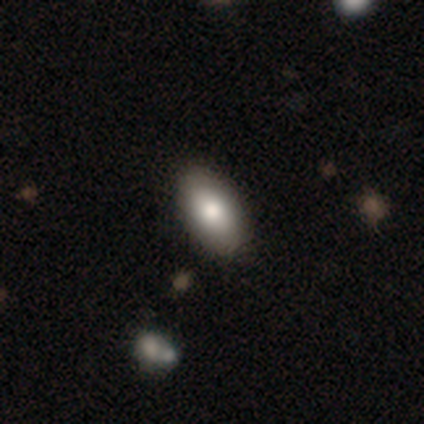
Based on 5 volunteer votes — Smooth or featured?
  - smooth: 60% *
  - featured or disk: 20%
  - star or artifact: 20%
How rounded?
  - in between: 100% *
  - round: 0%
  - cigar-shaped: 0%
Merging?
  - none: 100% *
  - minor disturbance: 0%
  - major disturbance: 0%
  - merger: 0%